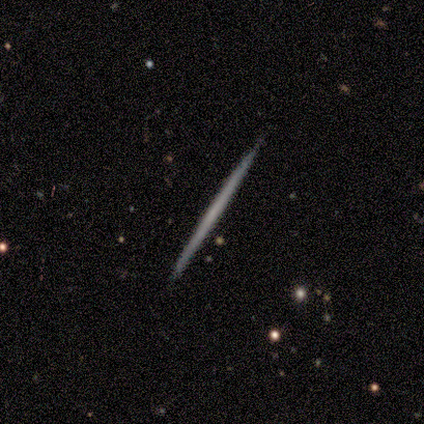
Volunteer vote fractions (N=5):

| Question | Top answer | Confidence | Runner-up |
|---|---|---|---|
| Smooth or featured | featured or disk | 60% | smooth (40%) |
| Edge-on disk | yes | 100% | — |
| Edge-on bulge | none | 100% | — |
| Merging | none | 100% | — |